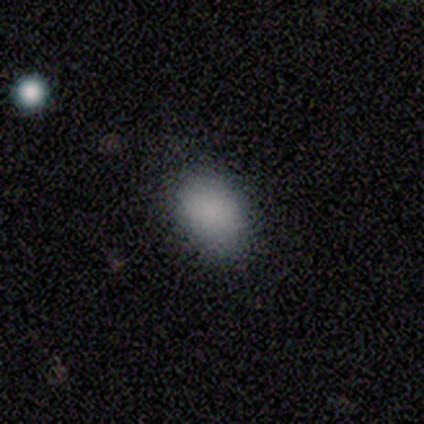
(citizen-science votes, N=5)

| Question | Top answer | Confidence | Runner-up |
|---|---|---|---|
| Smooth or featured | smooth | 80% | star or artifact (20%) |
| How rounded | round | 50% | tied: in between (50%) |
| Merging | none | 100% | — |